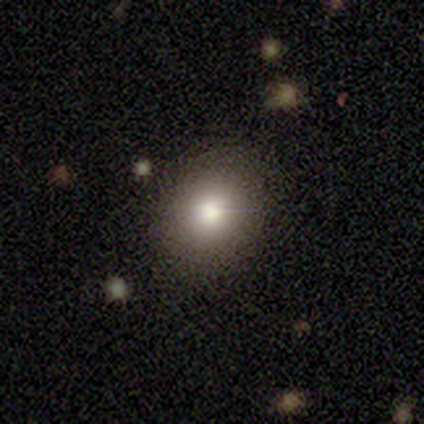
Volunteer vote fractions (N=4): Smooth or featured? 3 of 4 (75%) said smooth. How rounded? 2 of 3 (67%) said round. Merging? 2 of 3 (67%) said none.